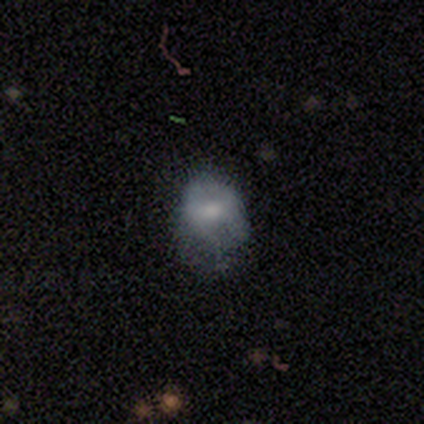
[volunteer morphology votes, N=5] This appears to be a smooth galaxy with no disk features (80%) that is round (100%). Merging: major disturbance (60%).